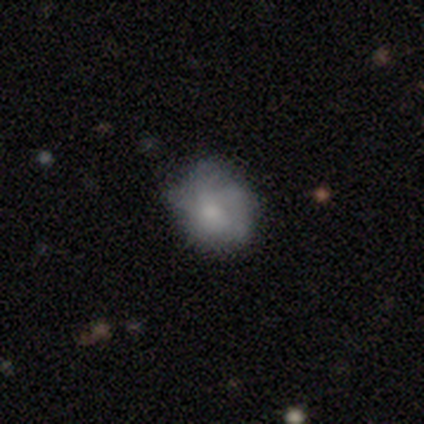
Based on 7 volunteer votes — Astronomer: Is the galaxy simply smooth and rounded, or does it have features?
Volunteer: smooth — 43% (runner-up: featured or disk, 29%).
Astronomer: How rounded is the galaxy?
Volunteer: in between — 100%.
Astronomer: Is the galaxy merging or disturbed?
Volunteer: none — 80%.